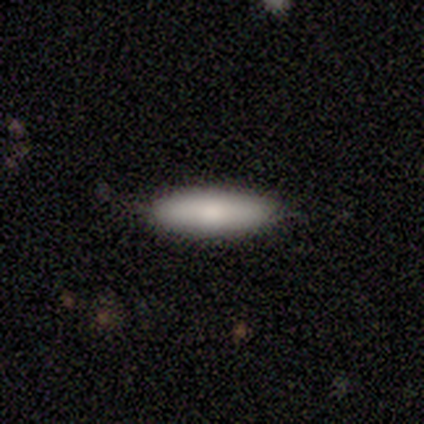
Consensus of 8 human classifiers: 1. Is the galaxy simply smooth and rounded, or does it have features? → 62% smooth, 38% featured or disk, 0% star or artifact.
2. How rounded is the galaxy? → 80% cigar-shaped, 20% in between, 0% round.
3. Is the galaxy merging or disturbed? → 88% none, 12% minor disturbance, 0% major disturbance, 0% merger.